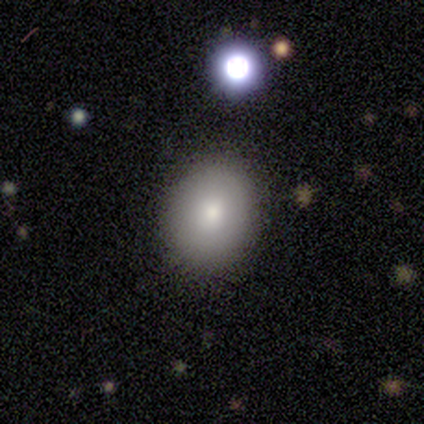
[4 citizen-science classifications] smooth_or_featured: smooth (p=0.50) [tied with: star or artifact p=0.50]
how_rounded: round (p=1.00)
merging: none (p=1.00)